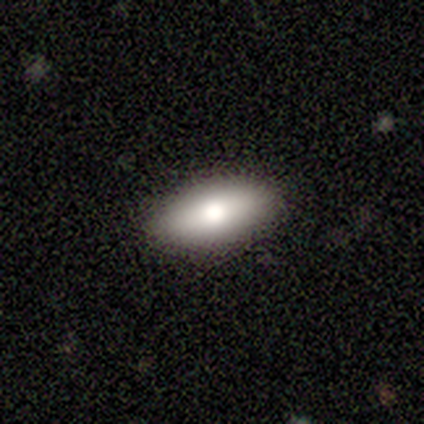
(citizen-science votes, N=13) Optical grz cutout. It shows a smooth galaxy with no disk features (62%) that is in between round and cigar-shaped (88%). Merging: none (83%).